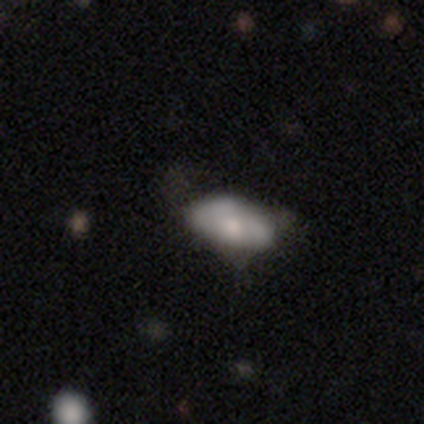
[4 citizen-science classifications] smooth 50%, featured or disk 25%, star or artifact 25%. Down the decision tree: how rounded — in between (100%); merging — none (33%, tied with minor disturbance and major disturbance).